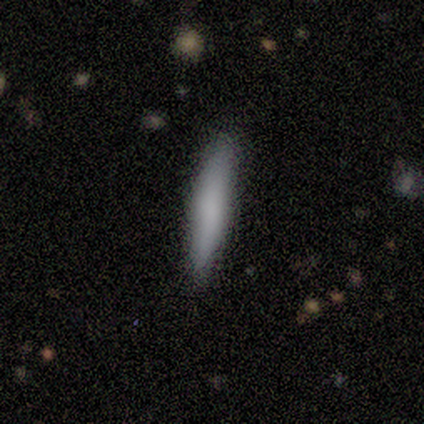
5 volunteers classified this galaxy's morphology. Overall: smooth (60%; featured or disk 40%). How rounded: cigar-shaped (100%). Merging: none (100%).